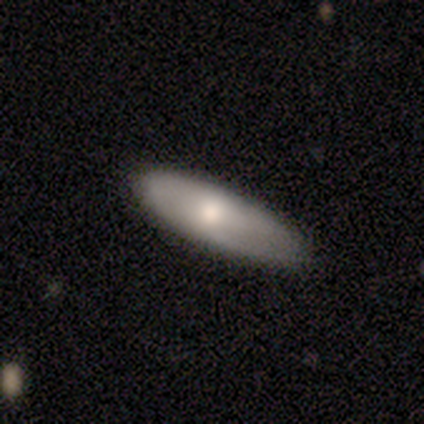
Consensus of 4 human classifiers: Overall: smooth (50%, tied with featured or disk). How rounded: in between (100%). Merging: none (100%).